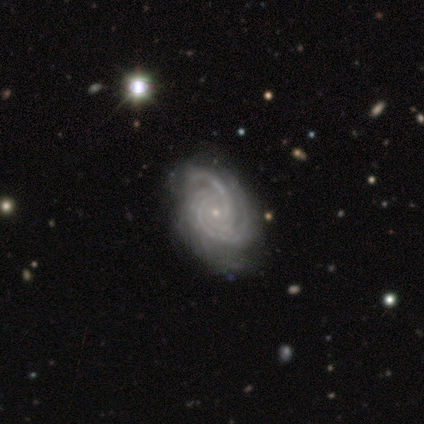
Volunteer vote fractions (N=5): smooth_or_featured: featured or disk (p=1.00)
disk_edge_on: no (p=1.00)
bar: no (p=0.80) [alt: weak p=0.20]
has_spiral_arms: yes (p=1.00)
spiral_winding: tight (p=1.00)
spiral_arm_count: 3 (p=0.60) [alt: 4 p=0.20]
bulge_size: small (p=1.00)
merging: major disturbance (p=0.60) [alt: none p=0.40]